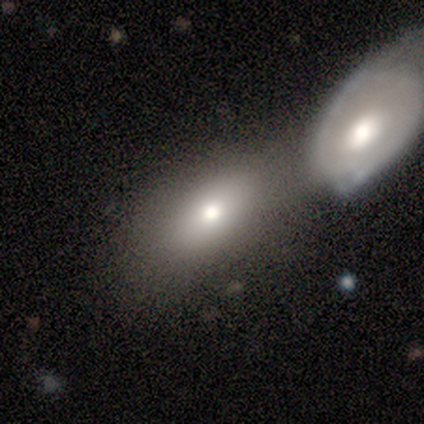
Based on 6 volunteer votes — Smooth or featured: smooth — 83% (star or artifact — 17%)
How rounded: in between — 100%
Merging: none — 80% (merger — 20%)